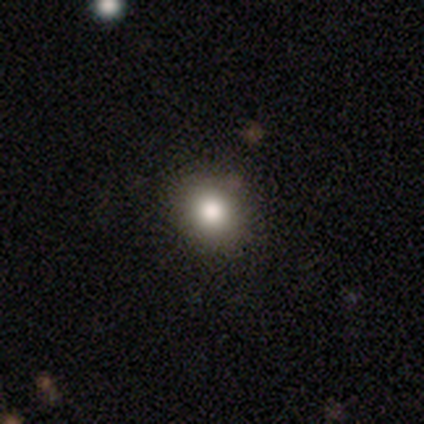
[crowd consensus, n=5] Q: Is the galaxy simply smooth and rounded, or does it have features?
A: smooth — 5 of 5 (100%).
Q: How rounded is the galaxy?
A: round — 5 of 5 (100%).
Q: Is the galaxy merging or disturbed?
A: none — 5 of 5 (100%).